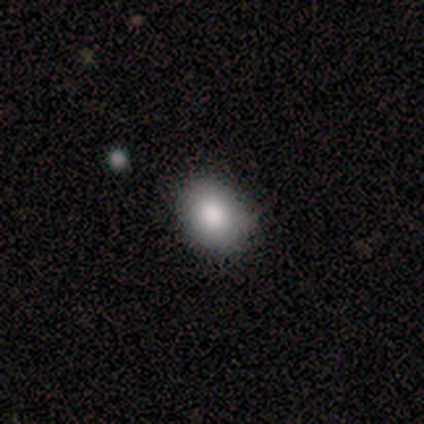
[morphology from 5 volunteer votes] smooth_or_featured: smooth (p=1.00)
how_rounded: in between (p=0.80) [alt: round p=0.20]
merging: none (p=1.00)